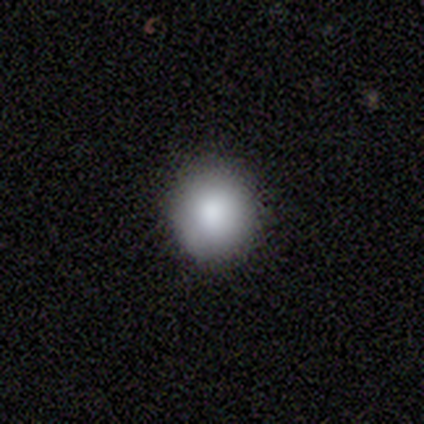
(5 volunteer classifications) A smooth galaxy with no disk features (100%) that is round (60%).

Vote fractions:
- Smooth or featured? smooth: 100% / featured or disk: 0% / star or artifact: 0%
- How rounded? round: 60% / in between: 40% / cigar-shaped: 0%
- Merging? none: 100% / minor disturbance: 0% / major disturbance: 0% / merger: 0%